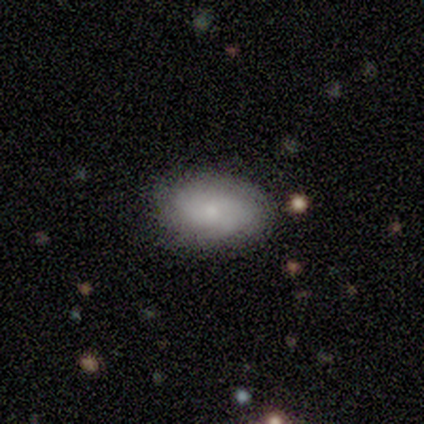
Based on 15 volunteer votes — smooth 67%, featured or disk 20%, star or artifact 13%. Down the decision tree: how rounded — in between (100%); merging — none (100%).